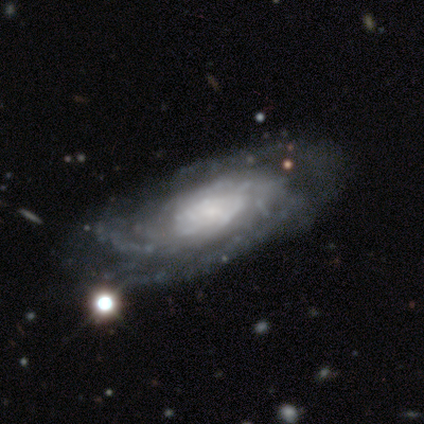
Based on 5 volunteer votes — A featured or disk galaxy (100%) with no bar (100%), tight (100%) spiral arms (100%) and a small central bulge (50%). Merging: none (80%).